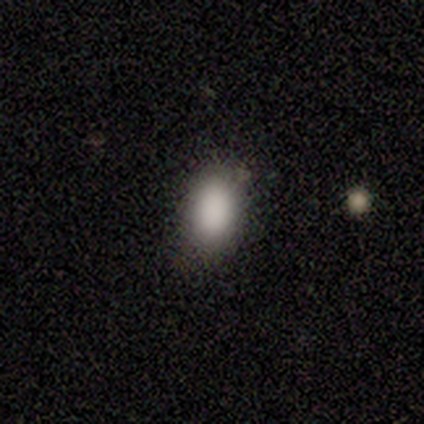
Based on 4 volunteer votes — Smooth or featured? 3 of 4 (75%) said smooth. How rounded? 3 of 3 (100%) said in between. Merging? 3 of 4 (75%) said none.